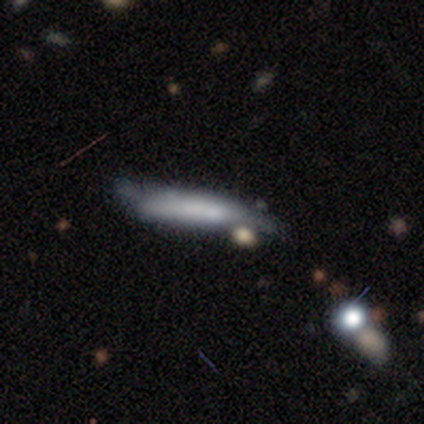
Smooth or featured? smooth (67%)
How rounded? cigar-shaped (75%)
Merging? minor disturbance (83%)